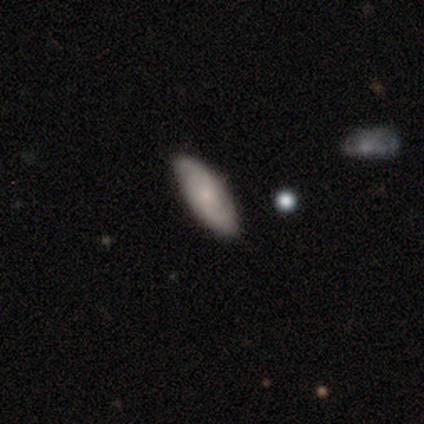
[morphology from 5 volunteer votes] Smooth or featured? 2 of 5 (40%, tied with featured or disk) said smooth. How rounded? 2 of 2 (100%) said in between. Merging? 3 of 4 (75%) said none.